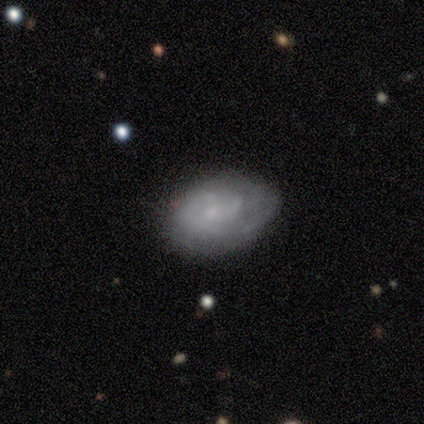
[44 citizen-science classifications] Morphology: type=featured or disk (73%); edge-on=no (100%); bar=no (94%); spiral arms=yes (69%); winding=tight (68%); arm count=can't tell (50%); bulge=small (56%); merging=none (61%).